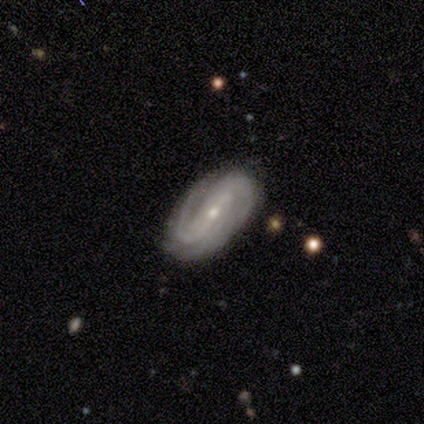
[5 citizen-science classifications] smooth-or-featured: featured or disk: 100% | smooth: 0% | star or artifact: 0%
  disk-edge-on: no: 100% | yes: 0%
    bar: weak: 60% | strong: 40% | no: 0%
    has-spiral-arms: yes: 100% | no: 0%
      spiral-winding: tight: 60% | medium: 40% | loose: 0%
      spiral-arm-count: 2: 100% | 1: 0% | 3: 0% | 4: 0% | more than 4: 0% | can't tell: 0%
    bulge-size: small: 60% | moderate: 20% | none: 20% | dominant: 0% | large: 0%
  merging: none: 100% | minor disturbance: 0% | major disturbance: 0% | merger: 0%